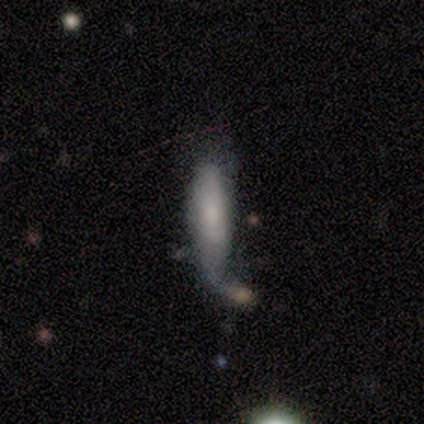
smooth-or-featured: smooth: 68% | featured or disk: 24% | star or artifact: 8%
  how-rounded: in between: 52% | cigar-shaped: 48% | round: 0%
  merging: merger: 32% | major disturbance: 26% | none: 24% | minor disturbance: 18%